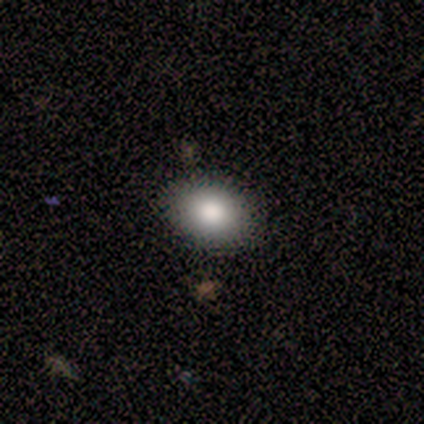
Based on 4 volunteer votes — Overall: smooth (100%). How rounded: in between (100%). Merging: none (100%).